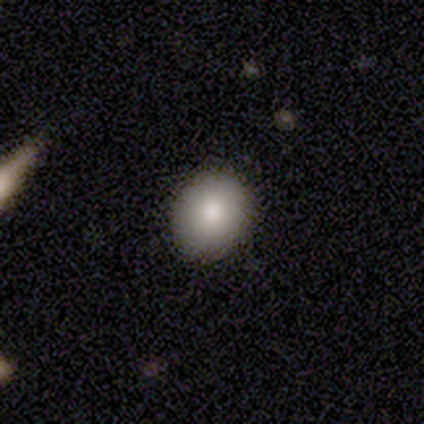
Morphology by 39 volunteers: Volunteers were most divided on "how rounded": round: 58%, in between: 42%, cigar-shaped: 0%. More confident: merging — none (91%); smooth or featured — smooth (79%).